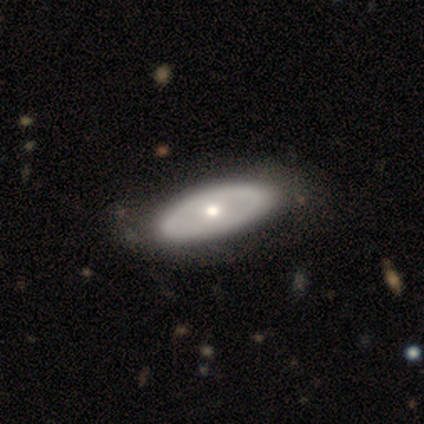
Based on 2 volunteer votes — A featured or disk galaxy (100%) viewed edge-on (50%, tied with no) with a rounded central bulge (100%).

Vote fractions:
- Smooth or featured? featured or disk: 100% / smooth: 0% / star or artifact: 0%
- Edge-on disk? yes: 50% (tied) / no: 50% (tied)
- Edge-on bulge? rounded: 100% / boxy: 0% / none: 0%
- Merging? none: 50% (tied) / minor disturbance: 50% (tied) / major disturbance: 0% / merger: 0%